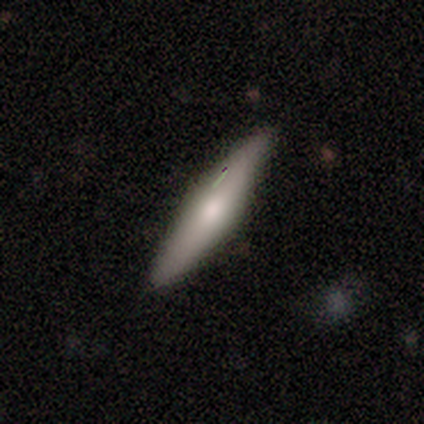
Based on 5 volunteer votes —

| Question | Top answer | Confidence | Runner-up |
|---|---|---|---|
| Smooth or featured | smooth | 80% | featured or disk (20%) |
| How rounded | cigar-shaped | 100% | — |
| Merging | none | 100% | — |